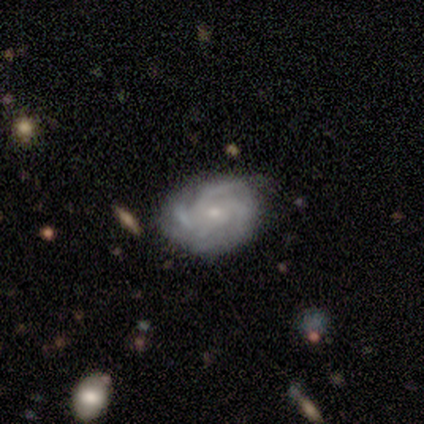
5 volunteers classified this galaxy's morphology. This appears to be a featured or disk galaxy (100%) with no bar (80%), 3 (60%) medium (80%) spiral arms (100%) and a moderate central bulge (40%, tied with small). Merging: none (60%).